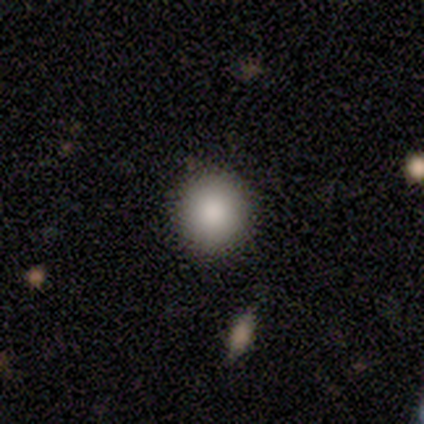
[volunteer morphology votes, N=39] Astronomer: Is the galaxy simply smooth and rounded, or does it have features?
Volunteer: smooth — 95%.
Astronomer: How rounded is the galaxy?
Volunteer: round — 92%.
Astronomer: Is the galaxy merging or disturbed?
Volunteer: none — 50%.